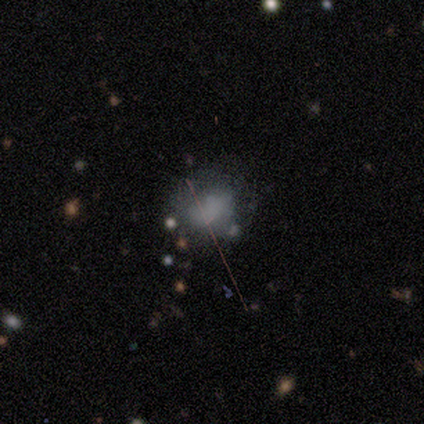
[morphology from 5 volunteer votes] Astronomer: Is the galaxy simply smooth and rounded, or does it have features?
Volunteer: star or artifact — 60%.